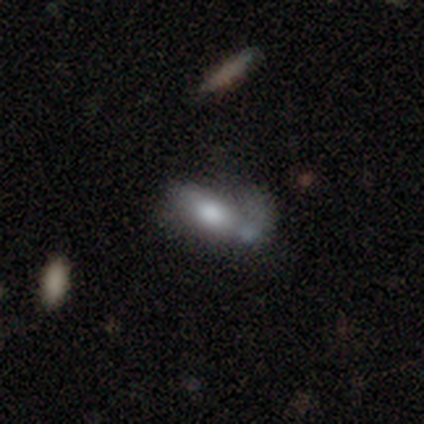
Smooth or featured? 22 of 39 (56%) said smooth. How rounded? 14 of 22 (64%) said in between. Merging? 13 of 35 (37%) said major disturbance.